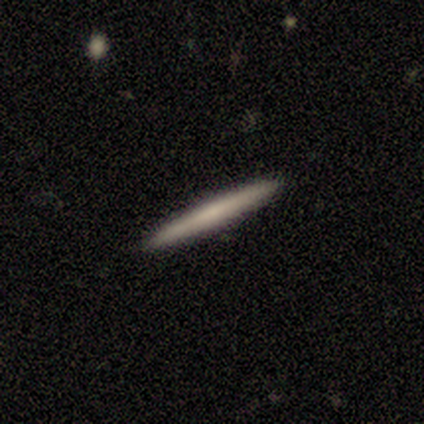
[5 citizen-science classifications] Smooth or featured?
  - smooth: 40% * (tied)
  - featured or disk: 40% * (tied)
  - star or artifact: 20%
How rounded?
  - cigar-shaped: 100% *
  - round: 0%
  - in between: 0%
Merging?
  - none: 100% *
  - minor disturbance: 0%
  - major disturbance: 0%
  - merger: 0%